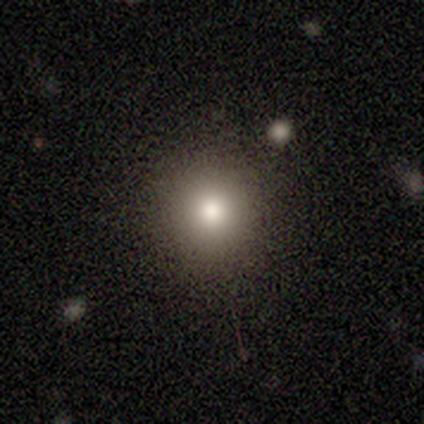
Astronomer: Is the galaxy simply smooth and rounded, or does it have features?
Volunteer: smooth — 50%.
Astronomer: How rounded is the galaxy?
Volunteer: round — 100%.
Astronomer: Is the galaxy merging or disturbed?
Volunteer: none — 67%.